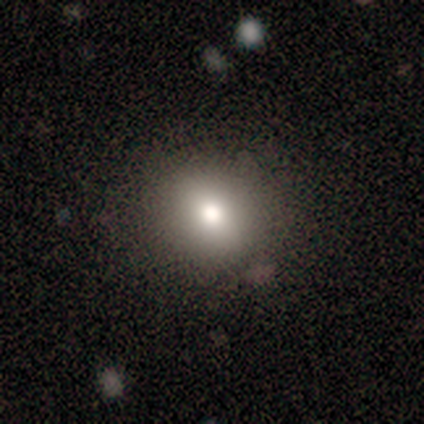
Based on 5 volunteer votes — This appears to be a smooth galaxy with no disk features (100%) that is round (100%). Merging: none (100%).